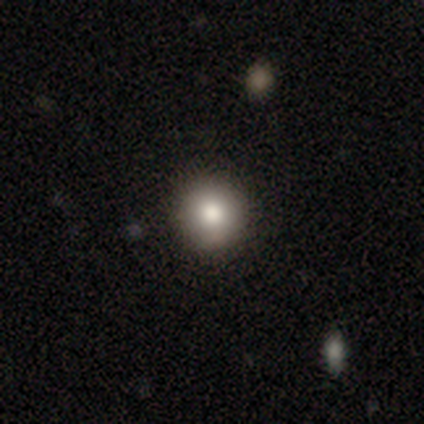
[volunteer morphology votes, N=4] smooth-or-featured: featured or disk: 50% | smooth: 25% | star or artifact: 25%
  disk-edge-on: no: 100% | yes: 0%
    bar: no: 100% | strong: 0% | weak: 0%
    has-spiral-arms: no: 100% | yes: 0%
    bulge-size: large: 50% (tied) | moderate: 50% (tied) | dominant: 0% | small: 0% | none: 0%
  merging: none: 100% | minor disturbance: 0% | major disturbance: 0% | merger: 0%